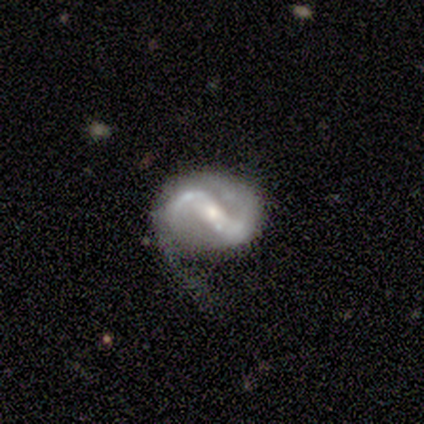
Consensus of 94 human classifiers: Smooth or featured: featured or disk — 84% (smooth — 11%)
Edge-on disk: no — 99% (yes — 1%)
Bar: strong — 60% (weak — 31%)
Spiral arms: yes — 96% (no — 4%)
Spiral winding: medium — 45% (loose — 41%)
Spiral arm count: 2 — 96% (1 — 4%)
Bulge size: moderate — 54% (small — 37%)
Merging: major disturbance — 35% (none — 34%)